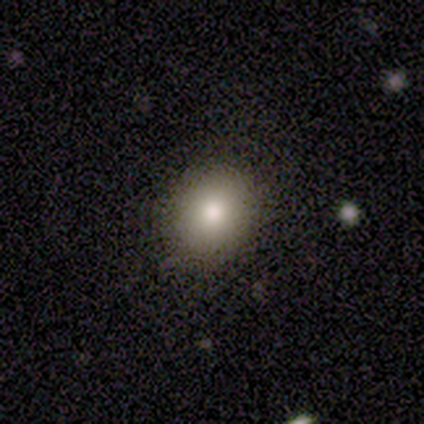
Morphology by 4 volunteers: smooth 100%, featured or disk 0%, star or artifact 0%. Down the decision tree: how rounded — round (100%); merging — none (100%).